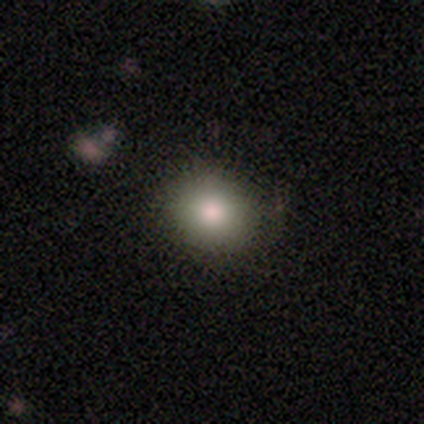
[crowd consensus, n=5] Q: Smooth or featured?
A: smooth (80%); runner-up: star or artifact (20%)
Q: How rounded?
A: round (75%); runner-up: in between (25%)
Q: Merging?
A: none (75%); runner-up: major disturbance (25%)